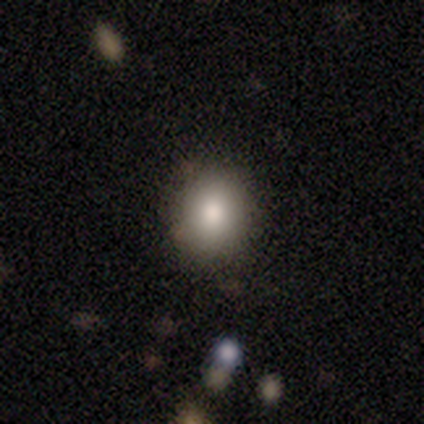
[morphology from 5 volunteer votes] A smooth galaxy with no disk features (60%) that is round (67%). Merging: none (100%).